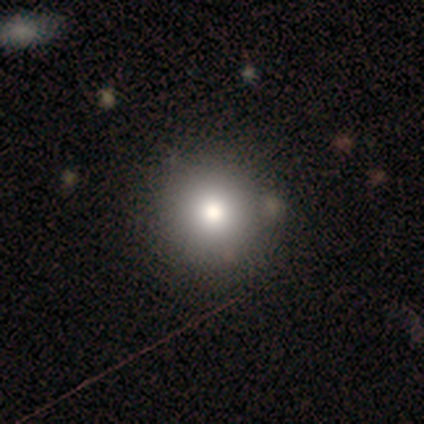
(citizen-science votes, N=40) smooth_or_featured: smooth (p=0.88) [alt: star or artifact p=0.10]
how_rounded: round (p=0.94) [alt: in between p=0.06]
merging: none (p=0.67) [alt: minor disturbance p=0.08]